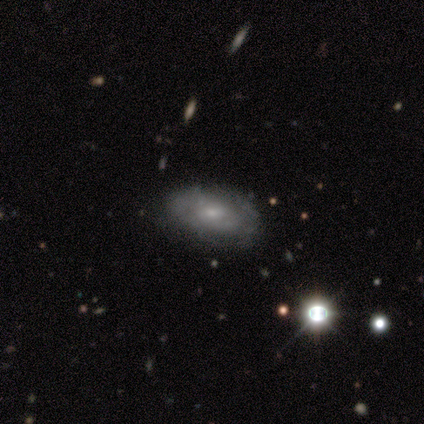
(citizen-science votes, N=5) featured or disk 80%, star or artifact 20%, smooth 0%. Down the decision tree: edge-on disk — no (100%); bar — weak (50%, tied with no); spiral arms — yes (100%); spiral arm count — can't tell (50%); spiral winding — tight (100%); bulge size — moderate (50%, tied with small); merging — none (50%, tied with minor disturbance).